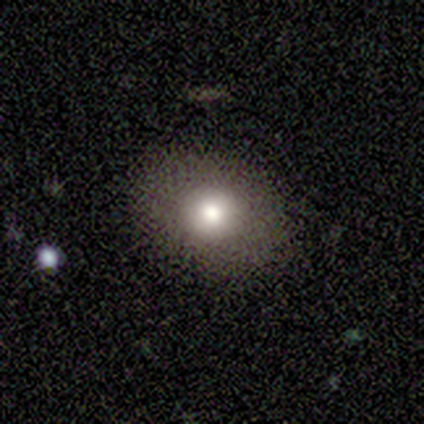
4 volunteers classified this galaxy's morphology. smooth 100%, featured or disk 0%, star or artifact 0%. Down the decision tree: how rounded — in between (75%); merging — none (75%).